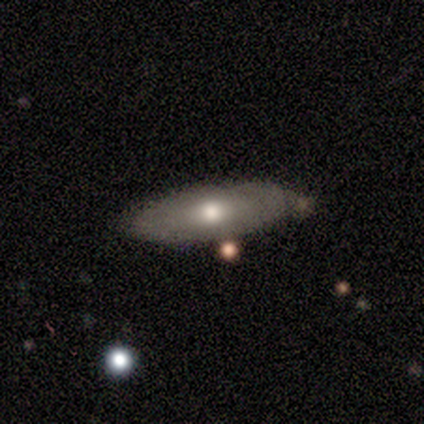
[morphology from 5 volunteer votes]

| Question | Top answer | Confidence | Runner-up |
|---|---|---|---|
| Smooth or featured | smooth | 60% | featured or disk (40%) |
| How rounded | in between | 67% | cigar-shaped (33%) |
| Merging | none | 100% | — |